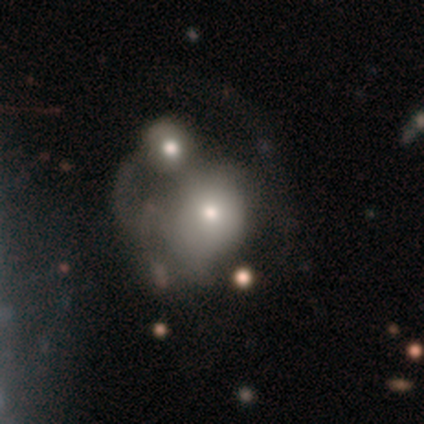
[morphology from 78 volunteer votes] Smooth or featured: smooth — 56% (featured or disk — 41%)
How rounded: round — 59% (in between — 39%)
Merging: merger — 46% (major disturbance — 16%)